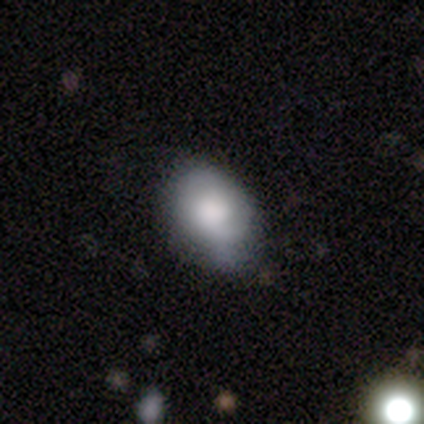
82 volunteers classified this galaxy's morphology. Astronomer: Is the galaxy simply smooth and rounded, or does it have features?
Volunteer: smooth — 78%.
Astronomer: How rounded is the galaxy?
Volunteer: in between — 80%.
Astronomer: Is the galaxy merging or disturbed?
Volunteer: none — 56% (runner-up: minor disturbance, 40%).